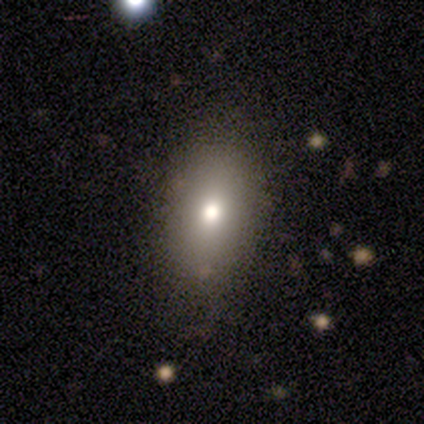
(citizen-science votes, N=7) smooth_or_featured: smooth (p=0.71) [alt: featured or disk p=0.29]
how_rounded: in between (p=1.00)
merging: none (p=0.71) [alt: minor disturbance p=0.29]